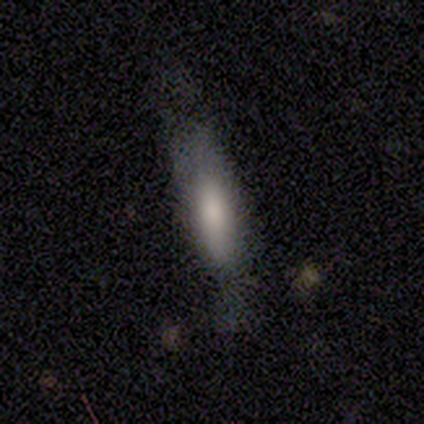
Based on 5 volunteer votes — This is clearly a smooth galaxy (100%). How rounded: likely cigar-shaped (60%). Merging: likely minor disturbance (60%).